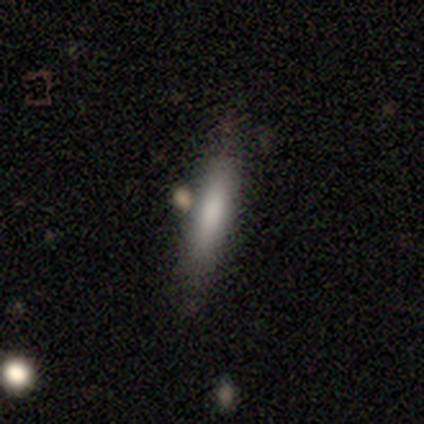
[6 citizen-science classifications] Smooth or featured: featured or disk — 50% (smooth — 33%)
Edge-on disk: yes — 100%
Edge-on bulge: none — 67% (rounded — 33%)
Merging: none — 60% (minor disturbance — 40%)